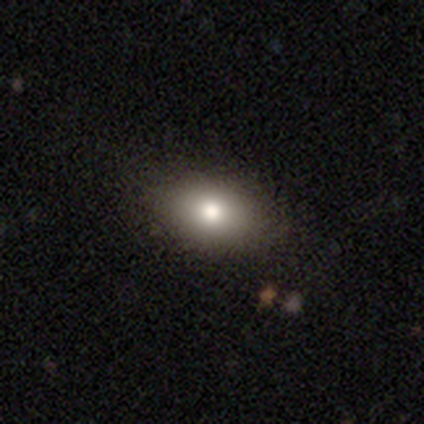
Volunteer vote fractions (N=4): This is clearly a smooth galaxy (100%). How rounded: clearly in between (100%). Merging: clearly none (100%).